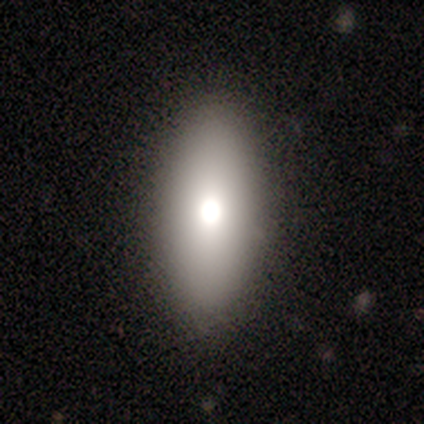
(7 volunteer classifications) Smooth or featured?
  - smooth: 71% *
  - featured or disk: 14%
  - star or artifact: 14%
How rounded?
  - in between: 80% *
  - cigar-shaped: 20%
  - round: 0%
Merging?
  - none: 50% * (tied)
  - minor disturbance: 50% * (tied)
  - major disturbance: 0%
  - merger: 0%